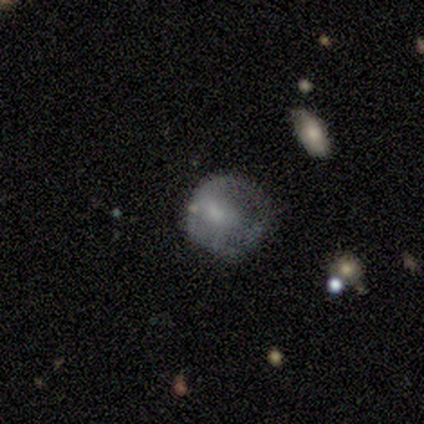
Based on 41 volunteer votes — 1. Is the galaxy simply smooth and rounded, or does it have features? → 49% featured or disk, 44% smooth, 7% star or artifact.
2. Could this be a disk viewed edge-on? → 100% no, 0% yes.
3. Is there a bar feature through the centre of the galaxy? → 75% no, 15% weak, 10% strong.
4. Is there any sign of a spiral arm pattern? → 85% no, 15% yes.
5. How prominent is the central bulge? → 35% small, 25% moderate, 20% none, 15% large, 5% dominant.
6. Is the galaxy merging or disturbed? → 47% major disturbance, 39% none, 11% minor disturbance, 3% merger.